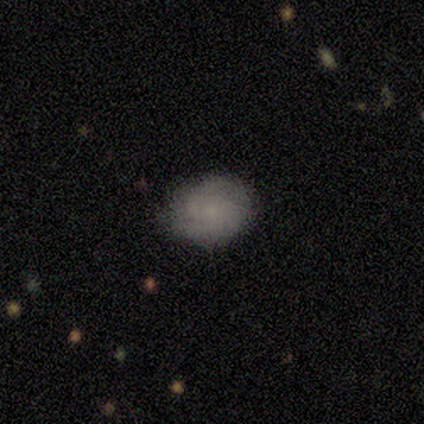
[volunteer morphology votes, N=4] smooth_or_featured: smooth (p=0.50) [tied with: featured or disk p=0.50]
how_rounded: round (p=0.50) [tied with: in between p=0.50]
merging: none (p=1.00)